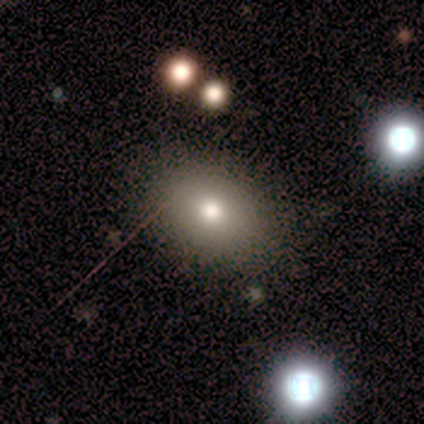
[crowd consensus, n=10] Q: Smooth or featured?
A: smooth (80%); runner-up: featured or disk (10%)
Q: How rounded?
A: in between (62%); runner-up: round (38%)
Q: Merging?
A: none (89%); runner-up: major disturbance (11%)